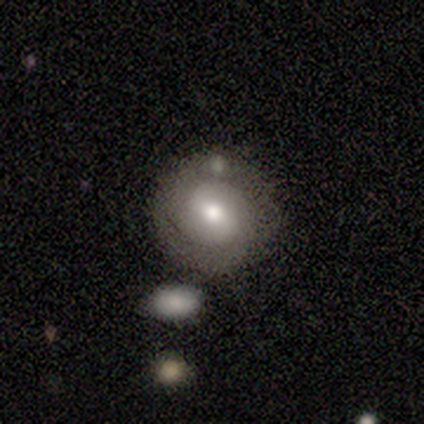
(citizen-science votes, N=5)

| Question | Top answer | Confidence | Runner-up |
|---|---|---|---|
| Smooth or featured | featured or disk | 60% | smooth (40%) |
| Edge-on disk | no | 100% | — |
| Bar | weak | 67% | no (33%) |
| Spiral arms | yes | 67% | no (33%) |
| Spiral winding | tight | 50% | tied: medium (50%) |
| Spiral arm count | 2 | 100% | — |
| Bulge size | moderate | 67% | small (33%) |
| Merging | none | 100% | — |